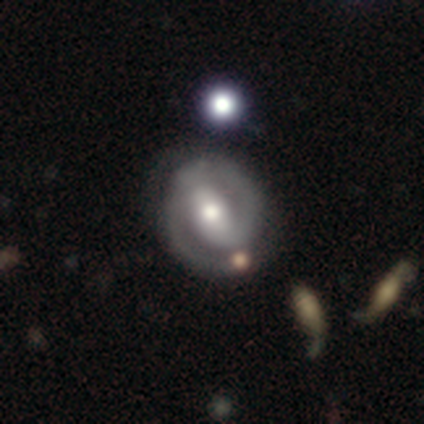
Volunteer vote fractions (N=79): Smooth or featured: featured or disk — 87% (smooth — 11%)
Edge-on disk: no — 99% (yes — 1%)
Bar: strong — 51% (weak — 37%)
Spiral arms: yes — 90% (no — 10%)
Spiral winding: tight — 56% (medium — 34%)
Spiral arm count: 2 — 84% (1 — 15%)
Bulge size: moderate — 71% (small — 18%)
Merging: none — 31% (minor disturbance — 17%)